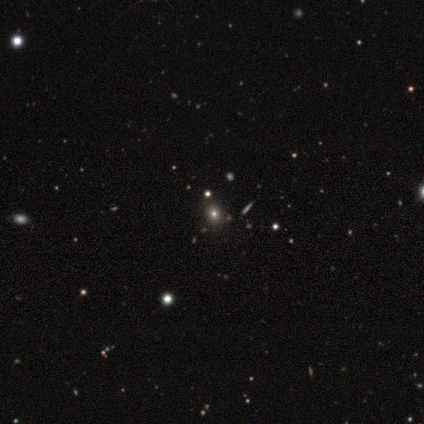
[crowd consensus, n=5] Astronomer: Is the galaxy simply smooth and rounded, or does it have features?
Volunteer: smooth — 80%.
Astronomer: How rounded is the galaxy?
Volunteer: round — 50%, tied with in between at 50%.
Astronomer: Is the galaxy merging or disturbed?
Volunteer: none — 100%.